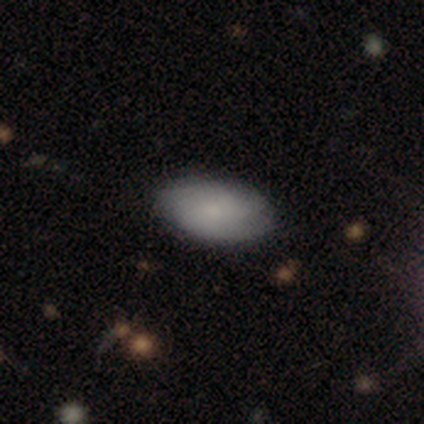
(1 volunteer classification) Morphology: type=smooth (100%); roundness=in between (100%); merging=none (100%).